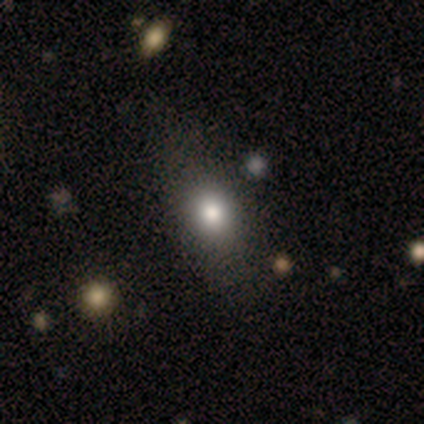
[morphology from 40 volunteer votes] Smooth or featured? smooth (80%)
How rounded? in between (62%)
Merging? none (59%)